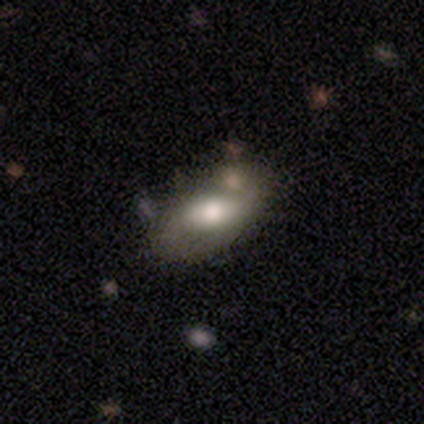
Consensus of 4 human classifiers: Q: Smooth or featured?
A: featured or disk (75%); runner-up: smooth (25%)
Q: Edge-on disk?
A: no (67%); runner-up: yes (33%)
Q: Bar?
A: weak (50%); tied with: no (50%)
Q: Spiral arms?
A: yes (50%); tied with: no (50%)
Q: Spiral winding?
A: loose (100%)
Q: Spiral arm count?
A: 2 (100%)
Q: Bulge size?
A: large (50%); tied with: moderate (50%)
Q: Merging?
A: none (100%)